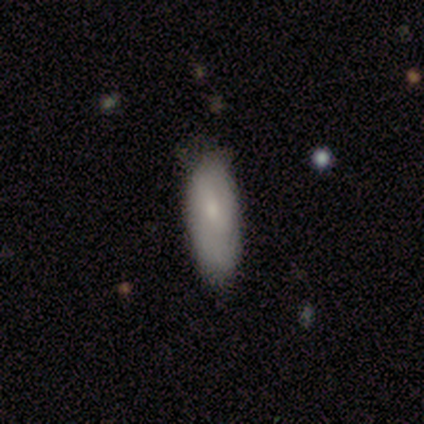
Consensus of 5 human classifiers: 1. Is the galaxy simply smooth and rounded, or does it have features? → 80% smooth, 20% featured or disk, 0% star or artifact.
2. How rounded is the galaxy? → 100% in between, 0% round, 0% cigar-shaped.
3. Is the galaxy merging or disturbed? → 60% none, 40% minor disturbance, 0% major disturbance, 0% merger.